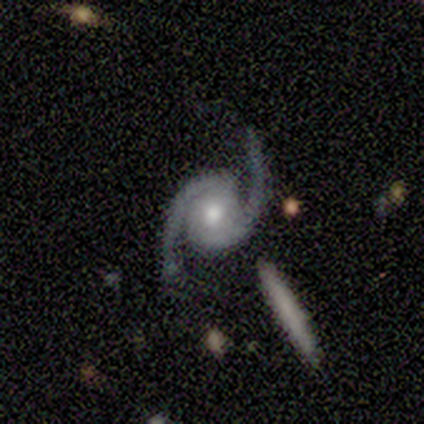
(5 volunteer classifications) Smooth or featured: featured or disk — 100%
Edge-on disk: no — 100%
Bar: no — 80% (strong — 20%)
Spiral arms: yes — 100%
Spiral winding: medium — 60% (tight — 20%)
Spiral arm count: 2 — 100%
Bulge size: moderate — 60% (small — 40%)
Merging: none — 100%